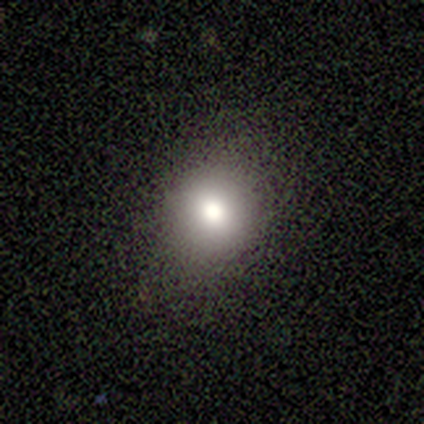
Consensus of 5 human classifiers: Q: Smooth or featured?
A: smooth (60%); runner-up: featured or disk (20%)
Q: How rounded?
A: round (67%); runner-up: in between (33%)
Q: Merging?
A: none (100%)